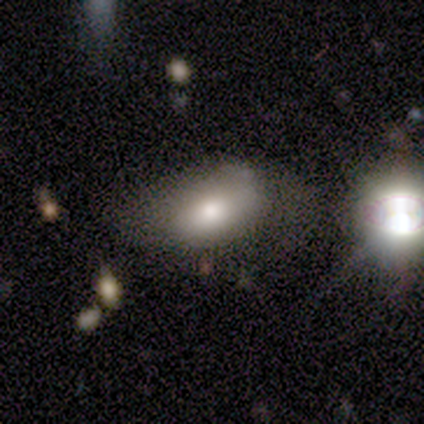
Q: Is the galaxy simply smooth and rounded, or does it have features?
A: smooth — 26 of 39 (67%).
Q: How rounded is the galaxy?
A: in between — 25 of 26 (96%).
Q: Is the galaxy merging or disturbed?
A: none — 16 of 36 (44%).